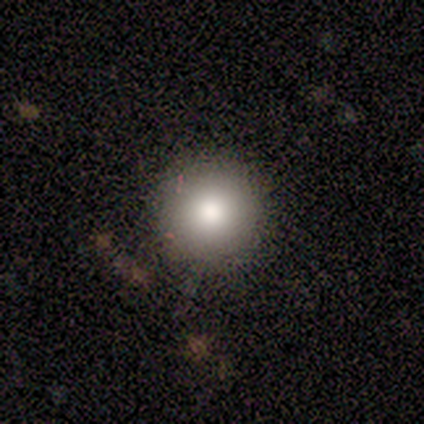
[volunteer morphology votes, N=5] Smooth or featured? smooth (60%)
How rounded? round (100%)
Merging? none (75%)